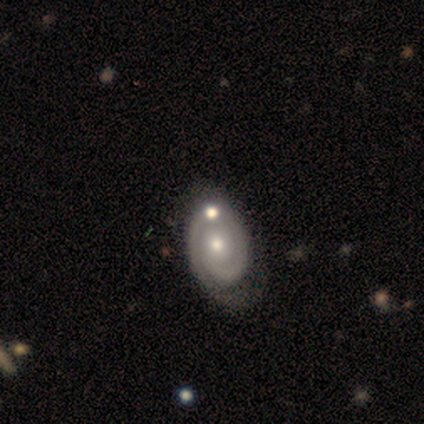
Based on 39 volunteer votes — Volunteers were most divided on "merging": none: 36%, merger: 19%, minor disturbance: 11%, major disturbance: 3%. More confident: edge-on disk — no (100%); spiral arms — yes (97%); spiral winding — tight (87%); bar — no (84%); smooth or featured — featured or disk (79%); spiral arm count — 1 (60%); bulge size — moderate (58%).